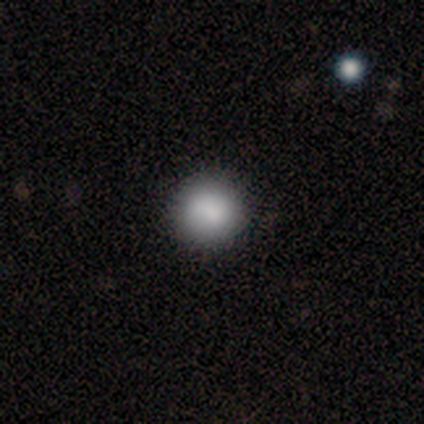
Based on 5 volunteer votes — Smooth or featured? star or artifact (60%)